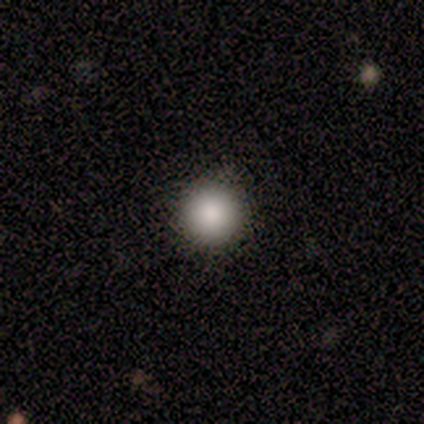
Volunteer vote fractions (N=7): Smooth or featured: smooth — 100%
How rounded: round — 100%
Merging: none — 71% (minor disturbance — 29%)